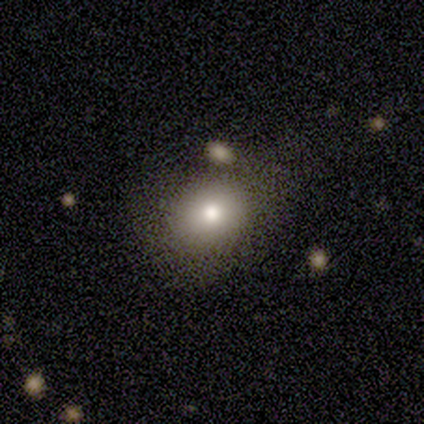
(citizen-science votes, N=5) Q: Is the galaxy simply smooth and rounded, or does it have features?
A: smooth — 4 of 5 (80%).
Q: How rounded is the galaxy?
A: in between — 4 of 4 (100%).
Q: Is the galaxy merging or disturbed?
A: none — 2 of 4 (50%).